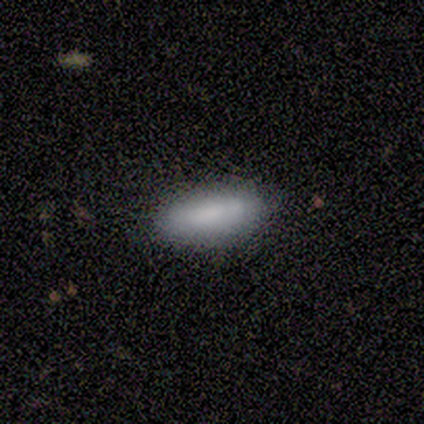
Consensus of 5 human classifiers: This appears to be a smooth galaxy with no disk features (80%) that is in between round and cigar-shaped (100%). Merging: none (100%).